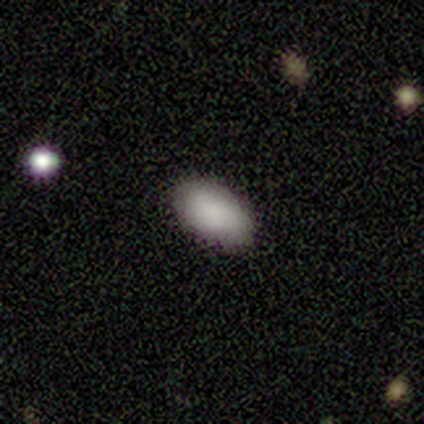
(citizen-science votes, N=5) Q: Smooth or featured?
A: smooth (80%); runner-up: featured or disk (20%)
Q: How rounded?
A: in between (100%)
Q: Merging?
A: none (100%)